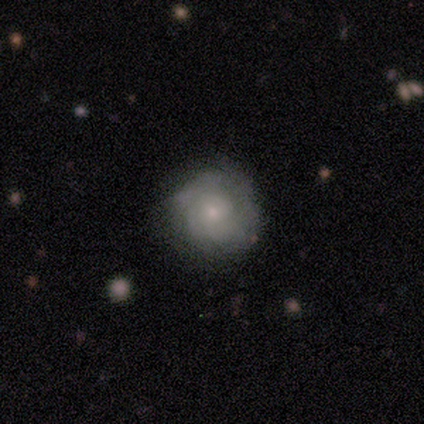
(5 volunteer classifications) smooth_or_featured: featured or disk (p=0.80) [alt: star or artifact p=0.20]
disk_edge_on: no (p=1.00)
bar: no (p=1.00)
has_spiral_arms: yes (p=1.00)
spiral_winding: tight (p=1.00)
spiral_arm_count: can't tell (p=0.50) [alt: 1 p=0.25]
bulge_size: small (p=0.75) [alt: moderate p=0.25]
merging: none (p=1.00)